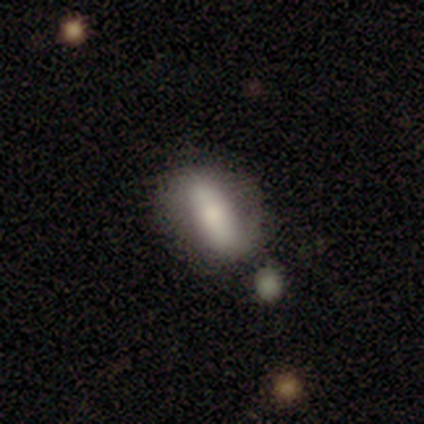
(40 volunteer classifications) smooth_or_featured: smooth (p=0.62) [alt: featured or disk p=0.33]
how_rounded: in between (p=0.84) [alt: cigar-shaped p=0.12]
merging: none (p=0.71) [alt: minor disturbance p=0.13]